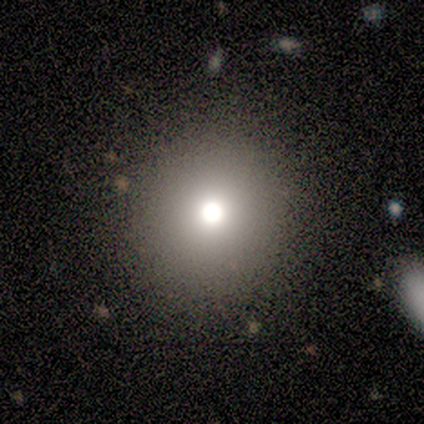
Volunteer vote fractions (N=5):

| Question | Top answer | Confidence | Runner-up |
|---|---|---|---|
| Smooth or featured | smooth | 60% | featured or disk (20%) |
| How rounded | round | 100% | — |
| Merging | none | 100% | — |